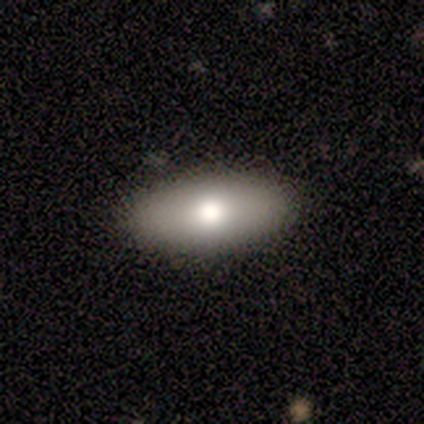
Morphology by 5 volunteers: Overall: smooth (100%). How rounded: in between (60%; cigar-shaped 40%). Merging: none (80%).